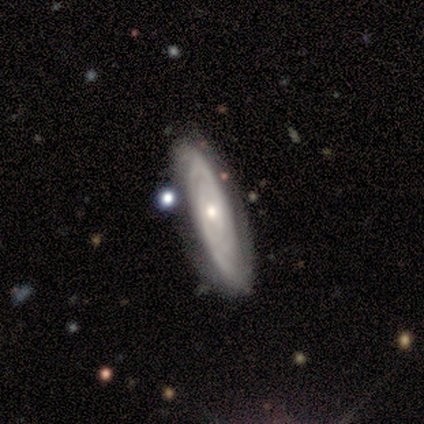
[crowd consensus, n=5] A featured or disk galaxy (80%) with no bar (100%), tight (100%) spiral arms (100%) and a small central bulge (75%). Merging: none (60%).